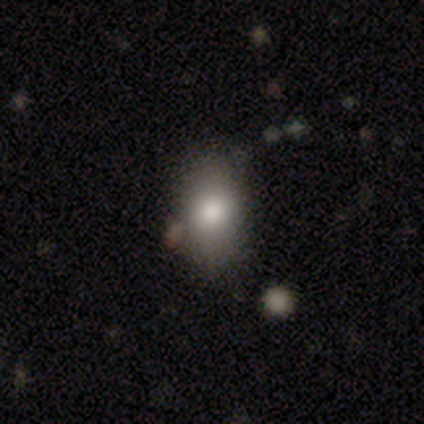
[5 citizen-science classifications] smooth_or_featured: smooth (p=1.00)
how_rounded: in between (p=0.80) [alt: round p=0.20]
merging: none (p=0.80) [alt: minor disturbance p=0.20]